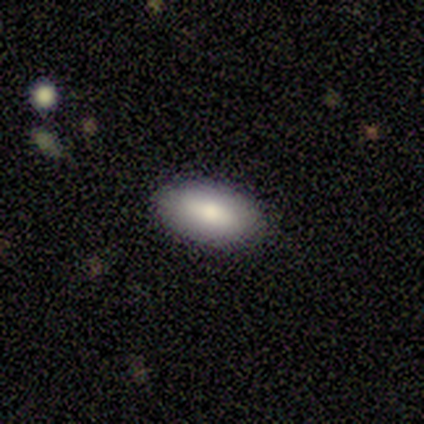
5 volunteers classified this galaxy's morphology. This is clearly a smooth galaxy (80%). How rounded: clearly in between (100%). Merging: clearly none (80%).